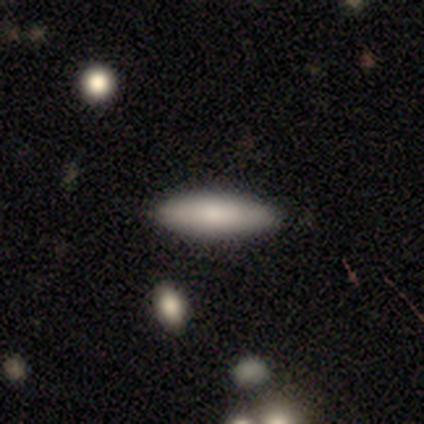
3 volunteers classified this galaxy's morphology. Smooth or featured?
  - smooth: 67% *
  - featured or disk: 33%
  - star or artifact: 0%
How rounded?
  - cigar-shaped: 100% *
  - round: 0%
  - in between: 0%
Merging?
  - none: 100% *
  - minor disturbance: 0%
  - major disturbance: 0%
  - merger: 0%